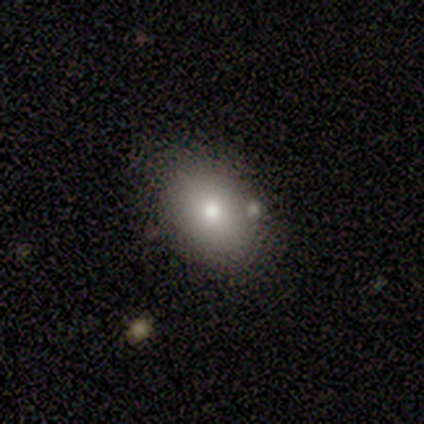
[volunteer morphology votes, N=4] Smooth or featured? smooth (100%)
How rounded? in between (100%)
Merging? none (100%)